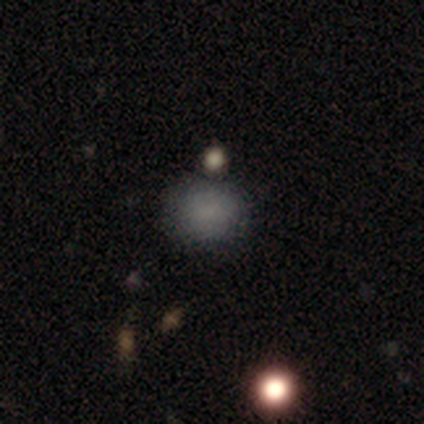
Q: Smooth or featured?
A: smooth (100%)
Q: How rounded?
A: round (50%); tied with: in between (50%)
Q: Merging?
A: none (75%); runner-up: minor disturbance (25%)